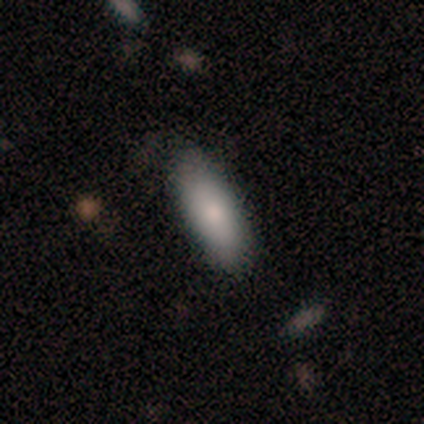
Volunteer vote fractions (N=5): Overall: smooth (80%). How rounded: cigar-shaped (75%). Merging: none (80%).